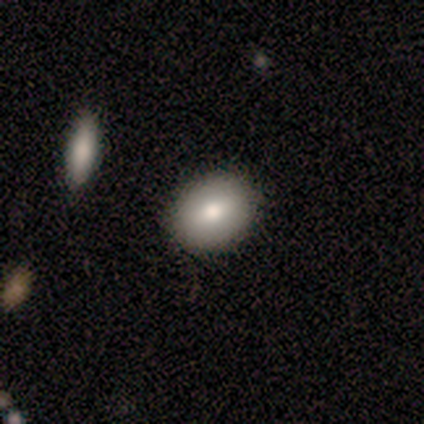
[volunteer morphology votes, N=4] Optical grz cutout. It shows a smooth galaxy with no disk features (75%) that is in between round and cigar-shaped (67%). Merging: none (100%).